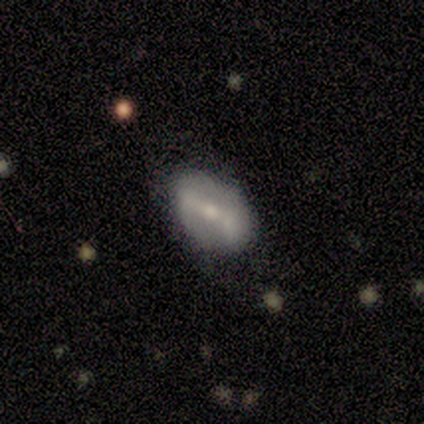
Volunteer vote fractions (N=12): smooth_or_featured: featured or disk (p=0.75) [alt: smooth p=0.17]
disk_edge_on: no (p=1.00)
bar: strong (p=0.67) [alt: no p=0.22]
has_spiral_arms: no (p=0.78) [alt: yes p=0.22]
bulge_size: small (p=0.67) [alt: moderate p=0.33]
merging: none (p=0.73) [alt: major disturbance p=0.18]